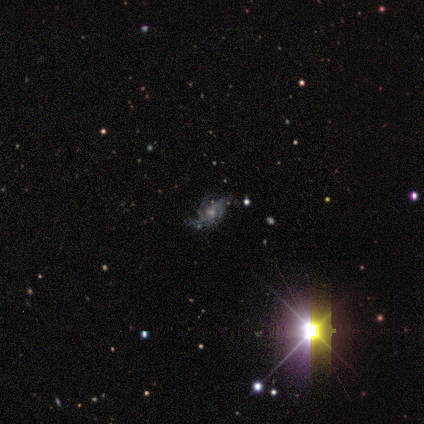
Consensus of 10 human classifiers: Smooth or featured?
  - featured or disk: 70% *
  - star or artifact: 20%
  - smooth: 10%
Edge-on disk?
  - no: 100% *
  - yes: 0%
Bar?
  - no: 57% *
  - strong: 29%
  - weak: 14%
Spiral arms?
  - yes: 100% *
  - no: 0%
Spiral winding?
  - medium: 57% *
  - tight: 43%
  - loose: 0%
Spiral arm count?
  - 2: 43% * (tied)
  - 3: 43% * (tied)
  - can't tell: 14%
  - 1: 0%
  - 4: 0%
  - more than 4: 0%
Bulge size?
  - moderate: 43% * (tied)
  - small: 43% * (tied)
  - none: 14%
  - dominant: 0%
  - large: 0%
Merging?
  - none: 88% *
  - minor disturbance: 12%
  - major disturbance: 0%
  - merger: 0%